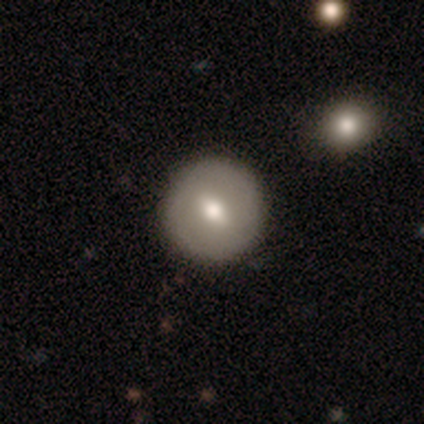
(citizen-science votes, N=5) smooth-or-featured: smooth: 60% | featured or disk: 40% | star or artifact: 0%
  how-rounded: round: 100% | in between: 0% | cigar-shaped: 0%
  merging: none: 60% | minor disturbance: 20% | merger: 20% | major disturbance: 0%